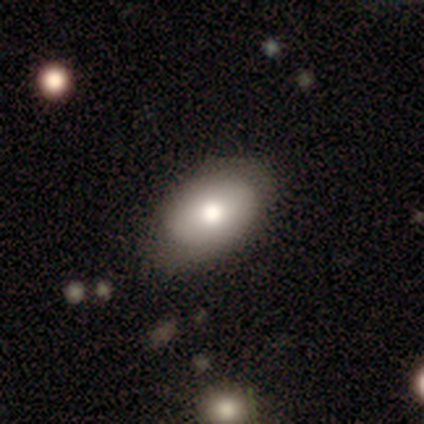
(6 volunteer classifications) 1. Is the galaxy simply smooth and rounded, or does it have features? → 83% smooth, 17% featured or disk, 0% star or artifact.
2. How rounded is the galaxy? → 80% in between, 20% round, 0% cigar-shaped.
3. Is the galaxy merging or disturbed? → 67% none, 17% minor disturbance, 17% major disturbance, 0% merger.